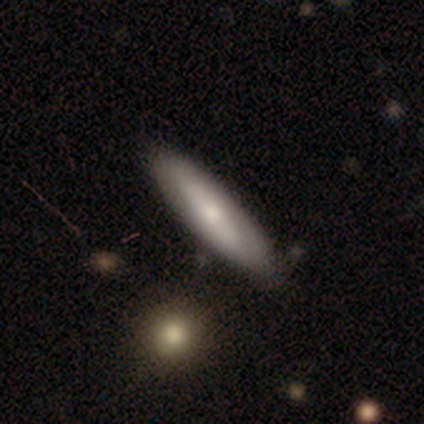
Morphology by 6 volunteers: Volunteers were most divided on "how rounded": cigar-shaped: 83%, in between: 17%, round: 0%. More confident: smooth or featured — smooth (100%); merging — none (100%).